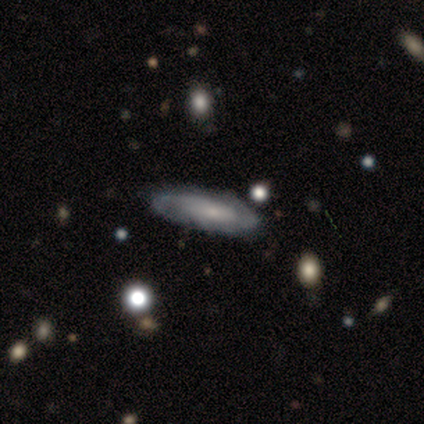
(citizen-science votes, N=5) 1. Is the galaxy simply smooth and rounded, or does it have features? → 60% smooth, 40% featured or disk, 0% star or artifact.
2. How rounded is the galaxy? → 67% in between, 33% cigar-shaped, 0% round.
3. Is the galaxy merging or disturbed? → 100% none, 0% minor disturbance, 0% major disturbance, 0% merger.